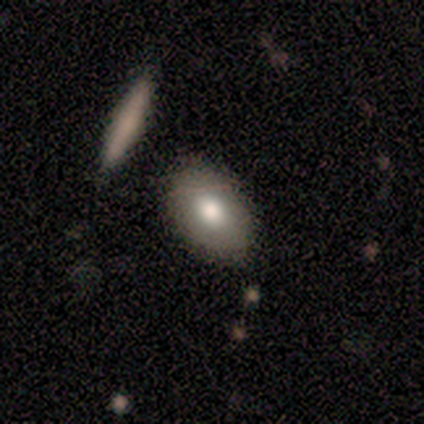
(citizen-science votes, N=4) smooth_or_featured: smooth (p=0.50) [alt: featured or disk p=0.25]
how_rounded: round (p=0.50) [tied with: cigar-shaped p=0.50]
merging: none (p=0.67) [alt: minor disturbance p=0.33]